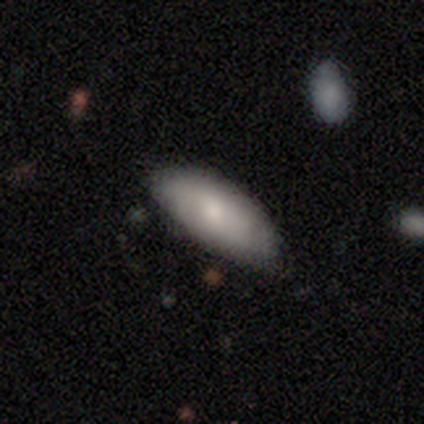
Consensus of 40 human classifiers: Volunteers were most divided on "smooth or featured": smooth: 60%, featured or disk: 30%, star or artifact: 10%. More confident: merging — none (78%); how rounded — in between (67%).